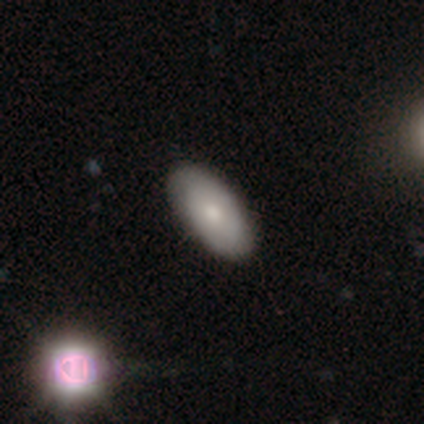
Smooth or featured? smooth (72%)
How rounded? in between (93%)
Merging? none (45%)